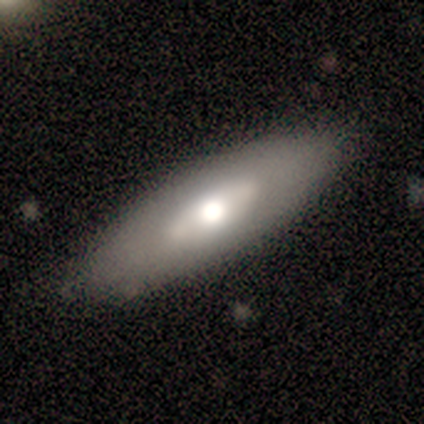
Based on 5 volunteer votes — Volunteers were most divided on "edge-on disk" (2-way tie): yes: 50%, no: 50%. More confident: edge-on bulge — rounded (100%); merging — none (100%); smooth or featured — featured or disk (80%).